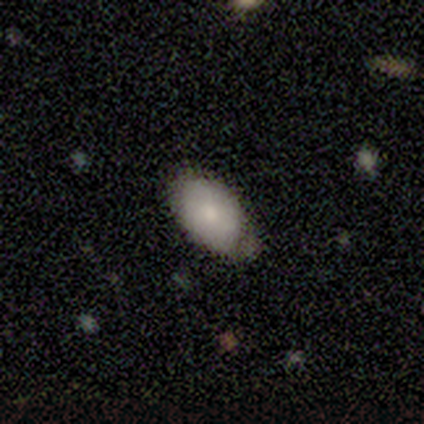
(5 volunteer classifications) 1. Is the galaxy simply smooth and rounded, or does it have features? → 80% smooth, 20% featured or disk, 0% star or artifact.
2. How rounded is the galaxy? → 100% in between, 0% round, 0% cigar-shaped.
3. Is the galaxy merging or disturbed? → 40% none (tied), 40% minor disturbance (tied), 20% merger, 0% major disturbance.